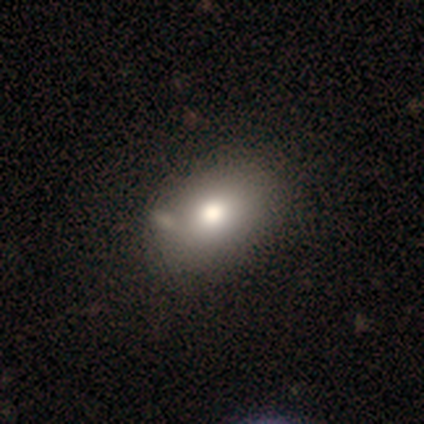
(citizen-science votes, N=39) Q: Smooth or featured?
A: smooth (69%); runner-up: featured or disk (15%)
Q: How rounded?
A: in between (85%); runner-up: round (15%)
Q: Merging?
A: none (70%); runner-up: merger (15%)